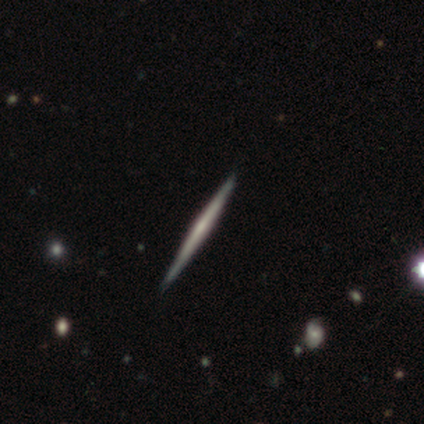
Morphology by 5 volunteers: smooth-or-featured: featured or disk: 80% | smooth: 20% | star or artifact: 0%
  disk-edge-on: yes: 100% | no: 0%
    edge-on-bulge: none: 75% | rounded: 25% | boxy: 0%
  merging: none: 100% | minor disturbance: 0% | major disturbance: 0% | merger: 0%